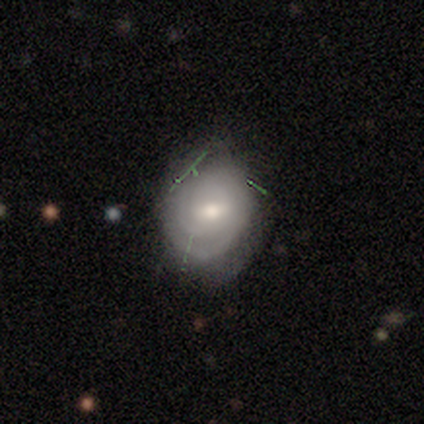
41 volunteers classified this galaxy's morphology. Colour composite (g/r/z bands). It shows a featured or disk galaxy (59%) with a weak bar (67%), tight (86%) spiral arms (88%) and a moderate central bulge (71%). Merging: none (53%).